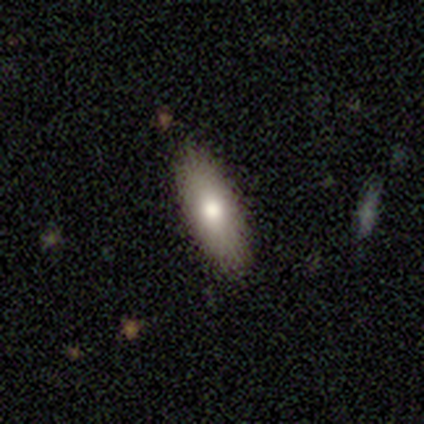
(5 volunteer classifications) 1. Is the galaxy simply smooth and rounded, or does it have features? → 80% smooth, 20% featured or disk, 0% star or artifact.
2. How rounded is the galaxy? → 50% in between (tied), 50% cigar-shaped (tied), 0% round.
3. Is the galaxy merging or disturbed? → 60% minor disturbance, 40% none, 0% major disturbance, 0% merger.